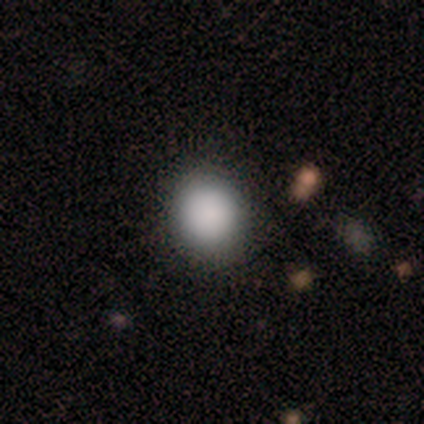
This is clearly a smooth galaxy (100%). How rounded: clearly round (100%). Merging: clearly none (80%).